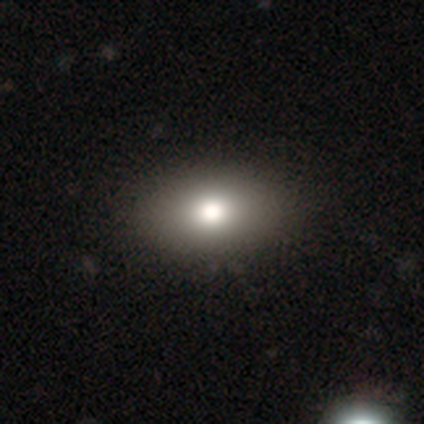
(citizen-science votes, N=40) Smooth or featured: smooth — 88% (star or artifact — 8%)
How rounded: in between — 94% (round — 3%)
Merging: none — 51% (minor disturbance — 8%)